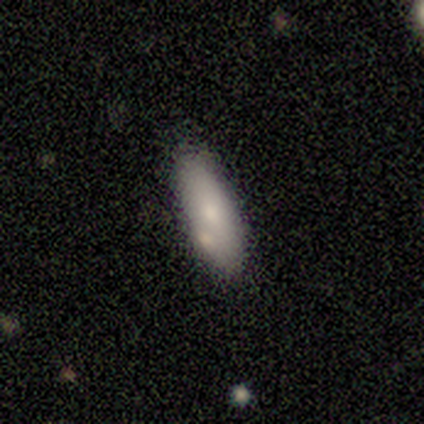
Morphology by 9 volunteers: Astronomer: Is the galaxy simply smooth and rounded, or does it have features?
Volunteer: smooth — 67%.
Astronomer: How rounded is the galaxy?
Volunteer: in between — 67%.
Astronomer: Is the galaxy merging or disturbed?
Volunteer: none — 56% (runner-up: merger, 33%).